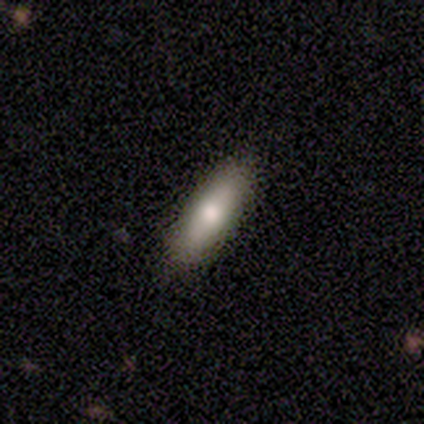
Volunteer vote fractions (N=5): smooth-or-featured: featured or disk: 60% | smooth: 40% | star or artifact: 0%
  disk-edge-on: yes: 67% | no: 33%
    edge-on-bulge: rounded: 100% | boxy: 0% | none: 0%
  merging: none: 80% | minor disturbance: 20% | major disturbance: 0% | merger: 0%